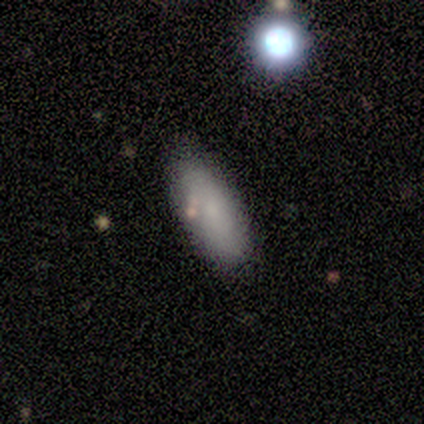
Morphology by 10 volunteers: A smooth galaxy with no disk features (90%) that is in between round and cigar-shaped (89%). Merging: none (70%).